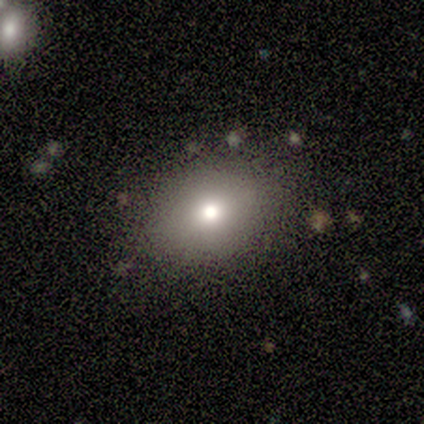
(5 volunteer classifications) smooth 80%, featured or disk 20%, star or artifact 0%. Down the decision tree: how rounded — round (50%, tied with in between); merging — none (80%).